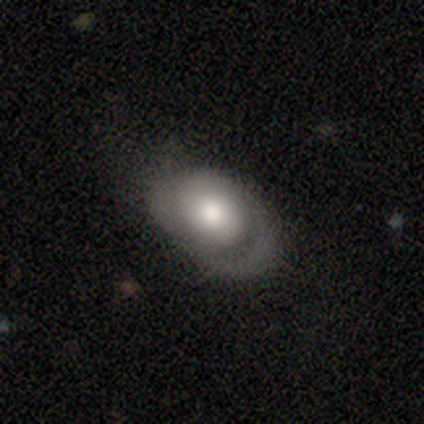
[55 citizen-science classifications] smooth-or-featured: featured or disk: 55% | smooth: 36% | star or artifact: 9%
  disk-edge-on: no: 93% | yes: 7%
    bar: no: 93% | strong: 4% | weak: 4%
    has-spiral-arms: yes: 61% | no: 39%
      spiral-winding: tight: 71% | medium: 24% | loose: 6%
      spiral-arm-count: 2: 47% | 1: 35% | can't tell: 18% | 3: 0% | 4: 0% | more than 4: 0%
    bulge-size: large: 54% | moderate: 29% | small: 11% | dominant: 7% | none: 0%
  merging: none: 44% | minor disturbance: 34% | major disturbance: 22% | merger: 0%